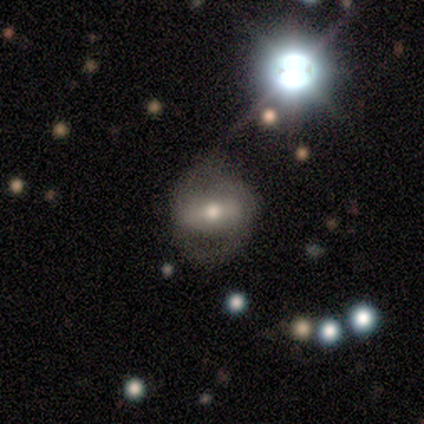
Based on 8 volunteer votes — Overall: smooth (50%; featured or disk 38%). How rounded: in between (75%). Merging: none (71%).